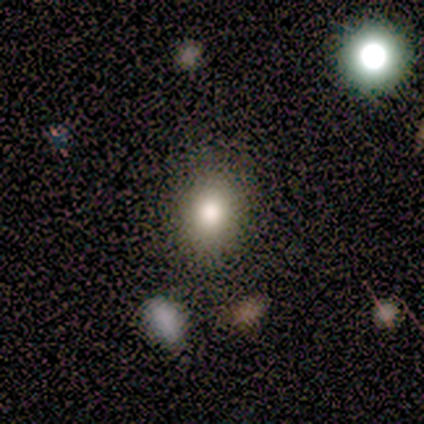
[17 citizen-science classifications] smooth 71%, star or artifact 18%, featured or disk 12%. Down the decision tree: how rounded — round (67%); merging — none (79%).